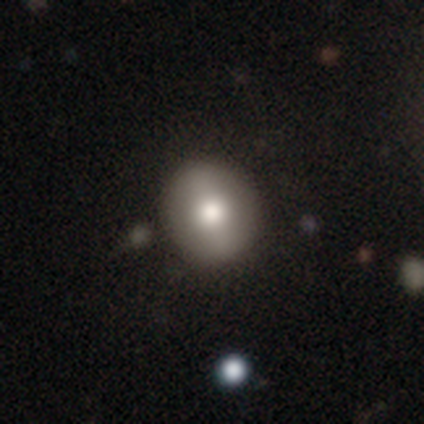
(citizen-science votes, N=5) This is likely a smooth galaxy (60%). How rounded: likely round (67%). Merging: clearly none (100%).